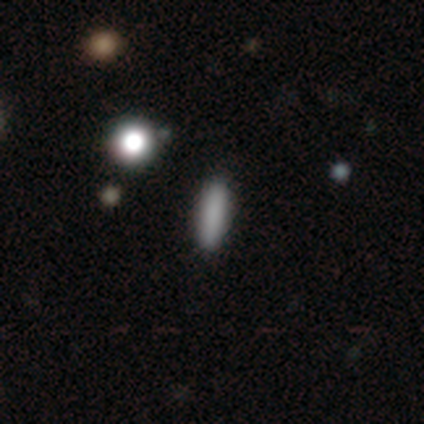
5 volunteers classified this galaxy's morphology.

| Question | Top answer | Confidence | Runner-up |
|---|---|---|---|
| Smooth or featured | smooth | 100% | — |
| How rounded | cigar-shaped | 80% | in between (20%) |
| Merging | none | 100% | — |